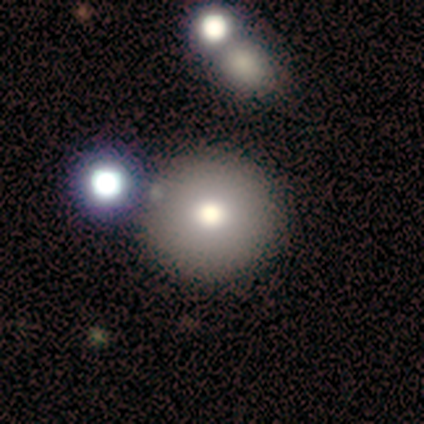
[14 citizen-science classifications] Smooth or featured? smooth (93%)
How rounded? round (100%)
Merging? none (79%)